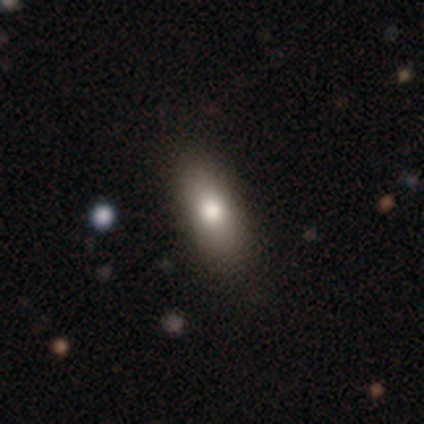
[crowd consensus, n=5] Smooth or featured?
  - smooth: 80% *
  - featured or disk: 20%
  - star or artifact: 0%
How rounded?
  - cigar-shaped: 75% *
  - in between: 25%
  - round: 0%
Merging?
  - none: 100% *
  - minor disturbance: 0%
  - major disturbance: 0%
  - merger: 0%